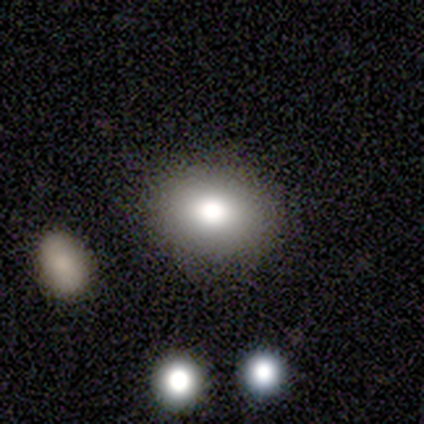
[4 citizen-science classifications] This appears to be a smooth galaxy with no disk features (100%) that is round (75%). Merging: none (75%).